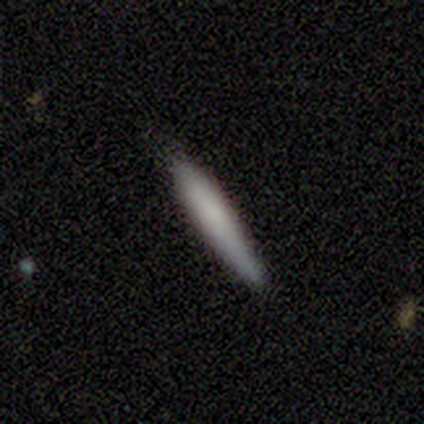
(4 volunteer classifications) Smooth or featured?
  - smooth: 100% *
  - featured or disk: 0%
  - star or artifact: 0%
How rounded?
  - cigar-shaped: 100% *
  - round: 0%
  - in between: 0%
Merging?
  - none: 75% *
  - major disturbance: 25%
  - minor disturbance: 0%
  - merger: 0%